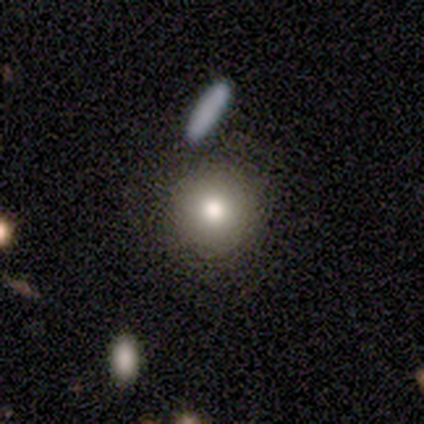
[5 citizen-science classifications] smooth 80%, featured or disk 20%, star or artifact 0%. Down the decision tree: how rounded — round (100%); merging — none (80%).